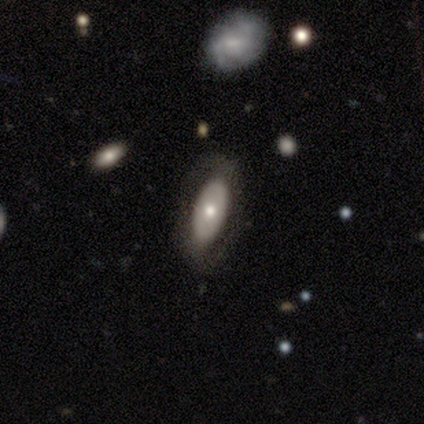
This is likely a smooth galaxy (60%). How rounded: likely in between (67%). Merging: likely none (60%).